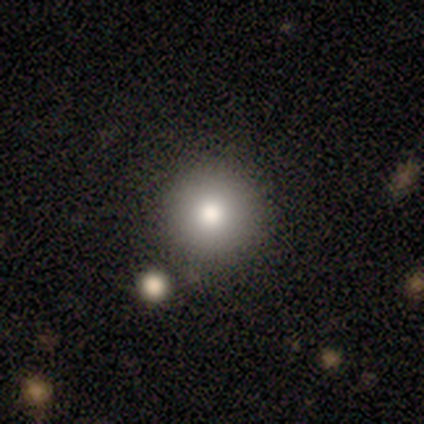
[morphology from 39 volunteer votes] type=smooth (87%); roundness=round (97%); merging=none (84%).